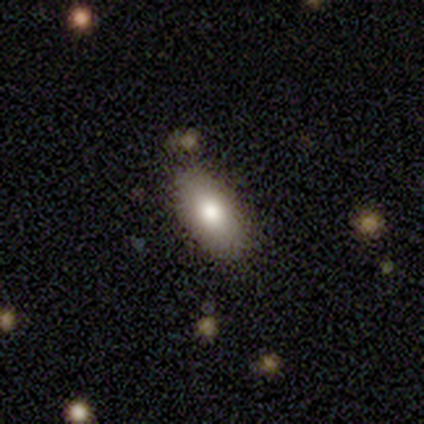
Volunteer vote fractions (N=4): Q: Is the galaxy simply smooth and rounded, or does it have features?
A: smooth — 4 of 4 (100%).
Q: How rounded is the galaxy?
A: in between — 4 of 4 (100%).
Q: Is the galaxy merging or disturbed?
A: none — 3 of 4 (75%).